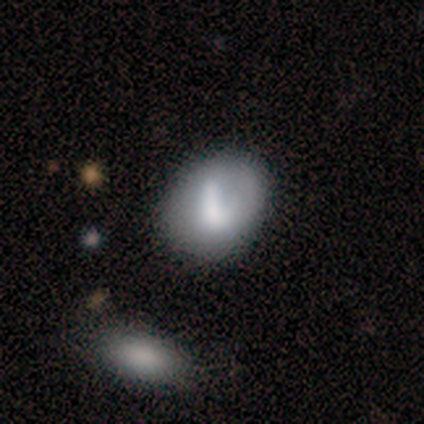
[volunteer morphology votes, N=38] Q: Smooth or featured?
A: featured or disk (58%); runner-up: smooth (42%)
Q: Edge-on disk?
A: no (95%); runner-up: yes (5%)
Q: Bar?
A: no (43%); runner-up: strong (29%)
Q: Spiral arms?
A: no (81%); runner-up: yes (19%)
Q: Bulge size?
A: none (38%); runner-up: moderate (29%)
Q: Merging?
A: none (47%); runner-up: minor disturbance (26%)